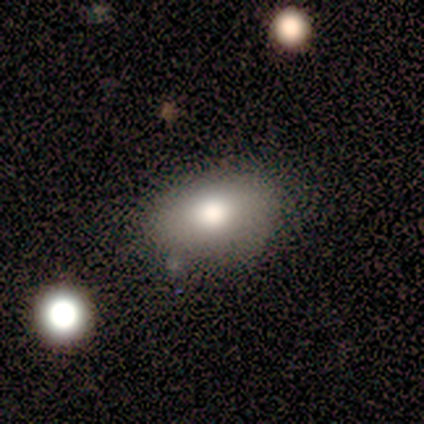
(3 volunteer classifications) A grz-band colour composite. It shows a smooth galaxy with no disk features (67%) that is in between round and cigar-shaped (100%). Merging: none (100%).